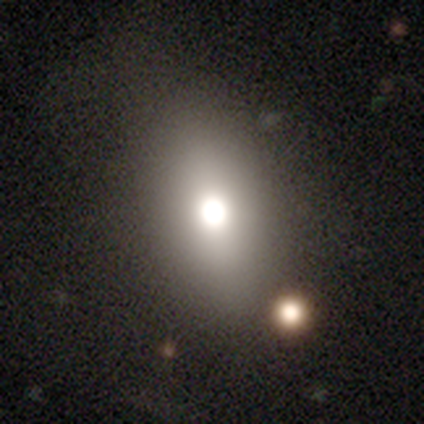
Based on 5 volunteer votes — Smooth or featured? smooth (60%)
How rounded? in between (100%)
Merging? none (75%)